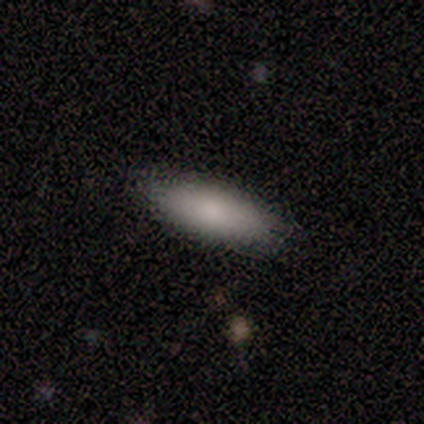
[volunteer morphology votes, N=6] This is clearly a smooth galaxy (100%). How rounded: possibly in between (50%, tied with cigar-shaped). Merging: clearly none (100%).